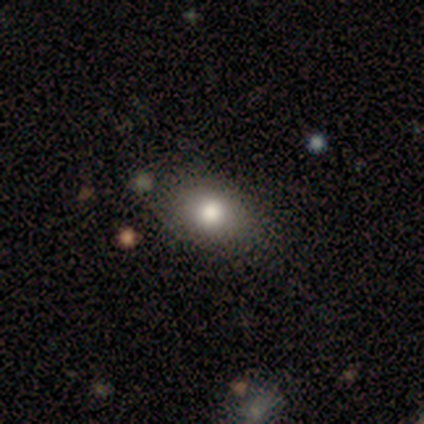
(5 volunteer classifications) Volunteers were most divided on "smooth or featured": smooth: 60%, featured or disk: 40%, star or artifact: 0%. More confident: merging — none (100%); how rounded — in between (67%).